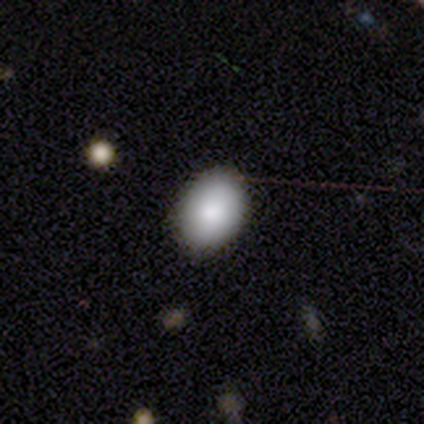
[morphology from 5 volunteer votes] Volunteers were most divided on "how rounded": in between: 80%, round: 20%, cigar-shaped: 0%. More confident: smooth or featured — smooth (100%); merging — none (100%).